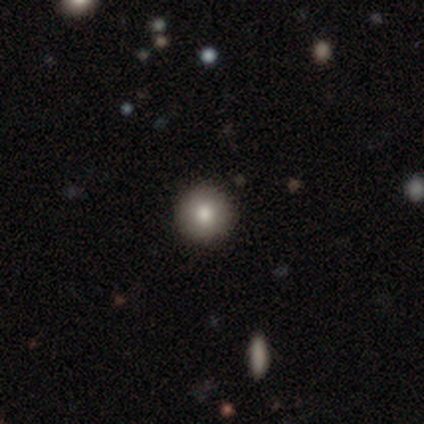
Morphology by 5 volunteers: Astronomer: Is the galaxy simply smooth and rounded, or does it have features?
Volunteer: star or artifact — 60% (runner-up: smooth, 40%).